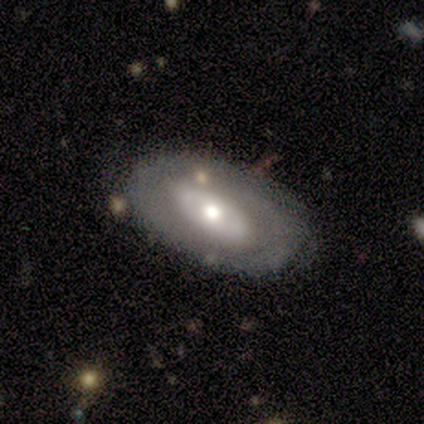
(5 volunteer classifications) smooth_or_featured: smooth (p=0.40) [tied with: featured or disk p=0.40]
how_rounded: round (p=0.50) [tied with: in between p=0.50]
merging: none (p=1.00)